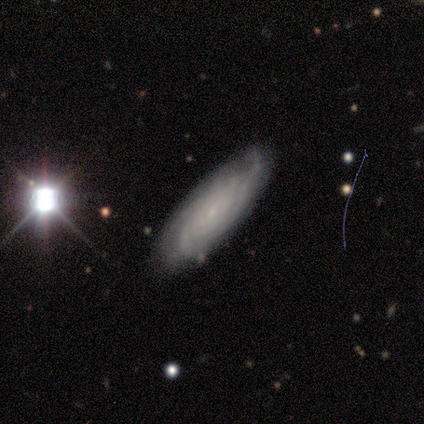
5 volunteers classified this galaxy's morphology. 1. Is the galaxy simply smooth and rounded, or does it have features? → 80% featured or disk, 20% smooth, 0% star or artifact.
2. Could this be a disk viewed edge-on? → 100% no, 0% yes.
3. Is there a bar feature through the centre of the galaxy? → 100% no, 0% strong, 0% weak.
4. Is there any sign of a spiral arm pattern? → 100% yes, 0% no.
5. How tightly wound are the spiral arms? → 75% tight, 25% medium, 0% loose.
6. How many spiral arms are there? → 75% can't tell, 25% 3, 0% 1, 0% 2, 0% 4, 0% more than 4.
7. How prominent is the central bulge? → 100% small, 0% dominant, 0% large, 0% moderate, 0% none.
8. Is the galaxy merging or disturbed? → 100% none, 0% minor disturbance, 0% major disturbance, 0% merger.